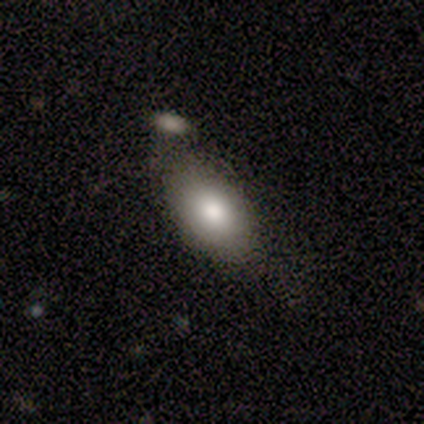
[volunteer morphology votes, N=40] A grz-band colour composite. It shows a smooth galaxy with no disk features (72%) that is in between round and cigar-shaped (97%). Merging: none (64%).